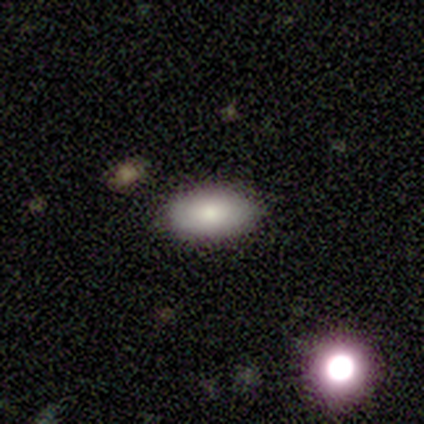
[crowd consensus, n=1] Q: Smooth or featured?
A: smooth (100%)
Q: How rounded?
A: in between (100%)
Q: Merging?
A: minor disturbance (100%)